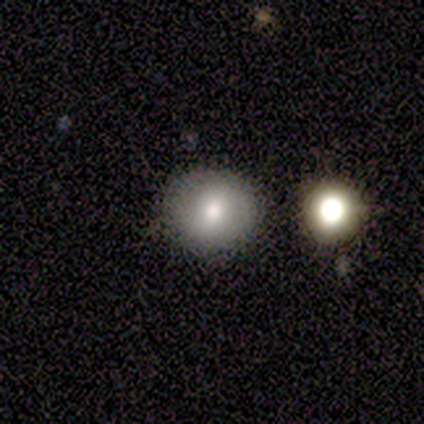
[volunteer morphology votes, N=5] Overall: smooth (100%). How rounded: round (100%). Merging: none (80%).